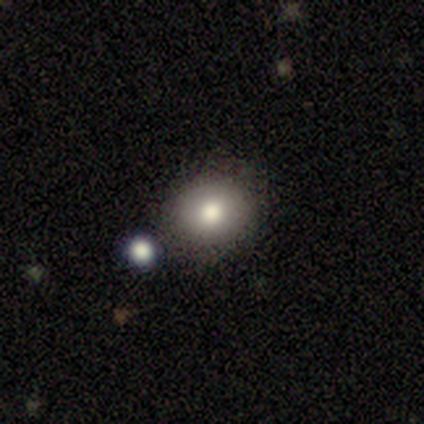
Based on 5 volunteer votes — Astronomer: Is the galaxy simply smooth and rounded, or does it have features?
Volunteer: smooth — 100%.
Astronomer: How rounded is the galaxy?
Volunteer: round — 100%.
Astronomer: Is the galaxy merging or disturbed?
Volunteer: none — 80%.